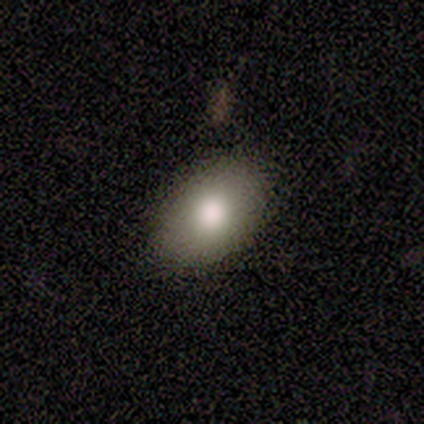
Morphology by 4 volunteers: smooth 100%, featured or disk 0%, star or artifact 0%. Down the decision tree: how rounded — in between (100%); merging — none (75%).